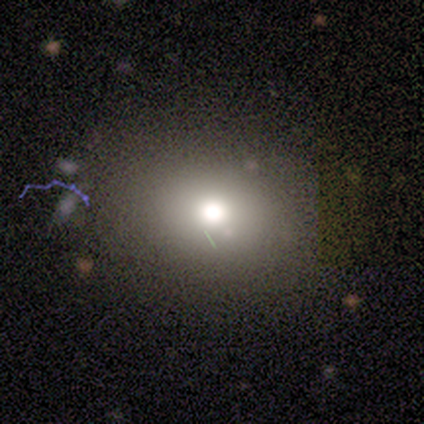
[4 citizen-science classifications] This is likely a smooth galaxy (75%). How rounded: clearly round (100%). Merging: clearly none (100%).